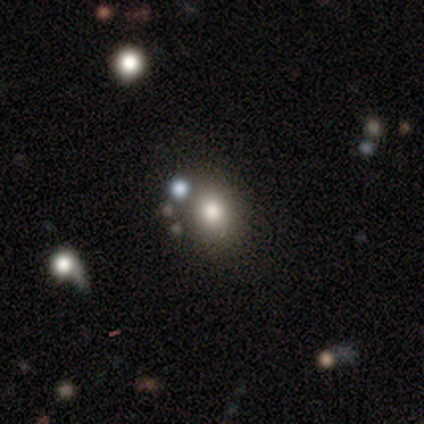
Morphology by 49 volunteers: This is likely a smooth galaxy (67%). How rounded: likely round (64%). Merging: likely none (79%).